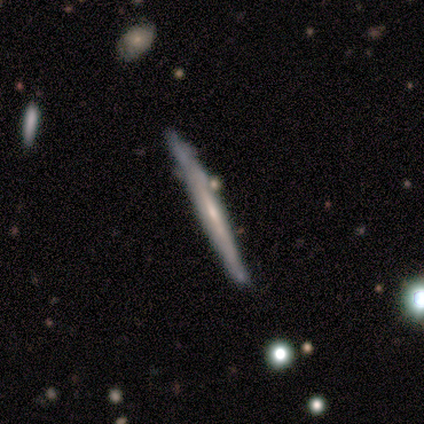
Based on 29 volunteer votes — Q: Smooth or featured?
A: featured or disk (55%); runner-up: smooth (38%)
Q: Edge-on disk?
A: yes (100%)
Q: Edge-on bulge?
A: none (62%); runner-up: rounded (25%)
Q: Merging?
A: none (78%); runner-up: minor disturbance (19%)